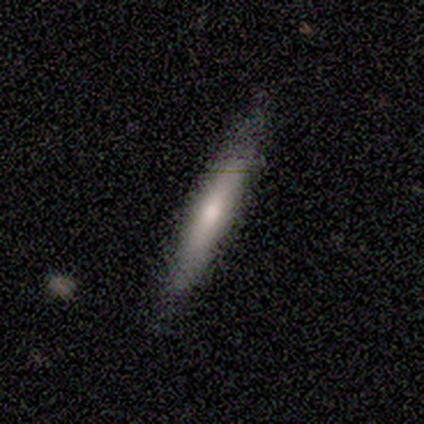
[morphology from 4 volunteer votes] smooth_or_featured: featured or disk (p=0.50) [alt: smooth p=0.25]
disk_edge_on: yes (p=1.00)
edge_on_bulge: none (p=0.50) [tied with: rounded p=0.50]
merging: none (p=1.00)